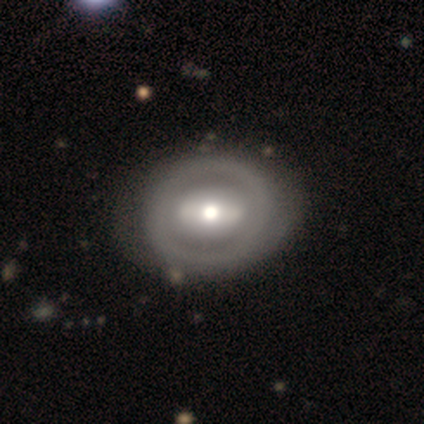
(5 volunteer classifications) smooth-or-featured: featured or disk: 100% | smooth: 0% | star or artifact: 0%
  disk-edge-on: no: 100% | yes: 0%
    bar: strong: 100% | weak: 0% | no: 0%
    has-spiral-arms: no: 60% | yes: 40%
    bulge-size: moderate: 60% | large: 20% | small: 20% | dominant: 0% | none: 0%
  merging: none: 80% | minor disturbance: 20% | major disturbance: 0% | merger: 0%